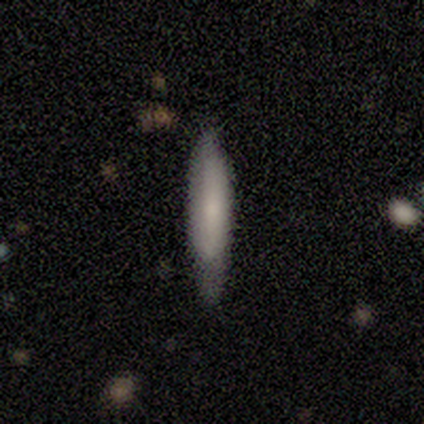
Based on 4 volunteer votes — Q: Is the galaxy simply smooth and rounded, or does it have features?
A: smooth — 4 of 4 (100%).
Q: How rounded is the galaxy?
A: in between — 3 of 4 (75%).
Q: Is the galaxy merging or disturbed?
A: minor disturbance — 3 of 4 (75%).